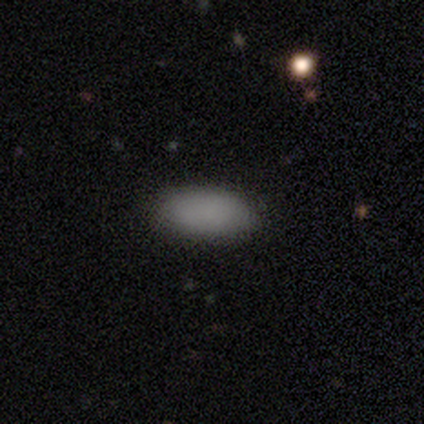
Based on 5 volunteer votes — Smooth or featured? smooth (100%)
How rounded? in between (100%)
Merging? none (100%)